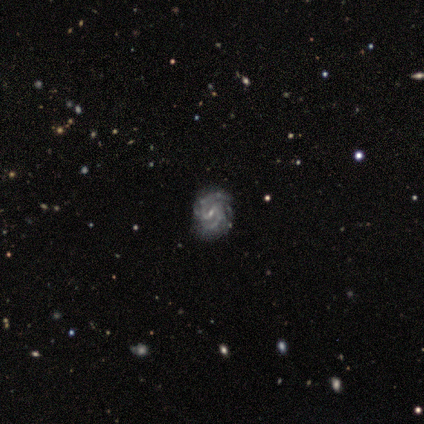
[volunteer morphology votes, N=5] Q: Smooth or featured?
A: featured or disk (100%)
Q: Edge-on disk?
A: no (100%)
Q: Bar?
A: weak (100%)
Q: Spiral arms?
A: yes (100%)
Q: Spiral winding?
A: medium (60%); runner-up: tight (40%)
Q: Spiral arm count?
A: 2 (60%); runner-up: 4 (20%)
Q: Bulge size?
A: small (80%); runner-up: moderate (20%)
Q: Merging?
A: none (100%)